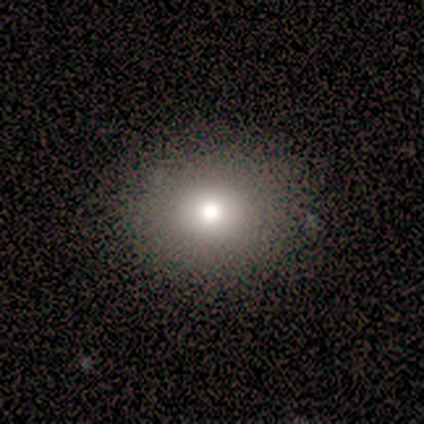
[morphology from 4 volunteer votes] This appears to be a smooth galaxy with no disk features (75%) that is round (67%). Merging: none (100%).